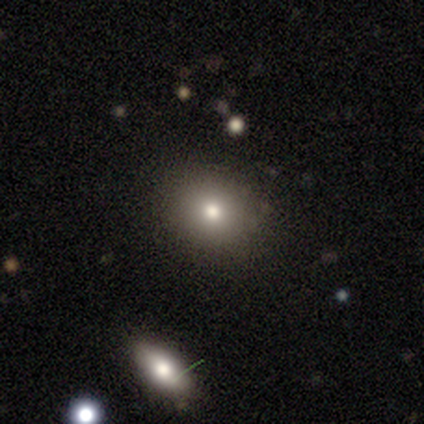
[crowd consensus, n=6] Smooth or featured?
  - smooth: 67% *
  - featured or disk: 17%
  - star or artifact: 17%
How rounded?
  - round: 100% *
  - in between: 0%
  - cigar-shaped: 0%
Merging?
  - none: 80% *
  - minor disturbance: 20%
  - major disturbance: 0%
  - merger: 0%